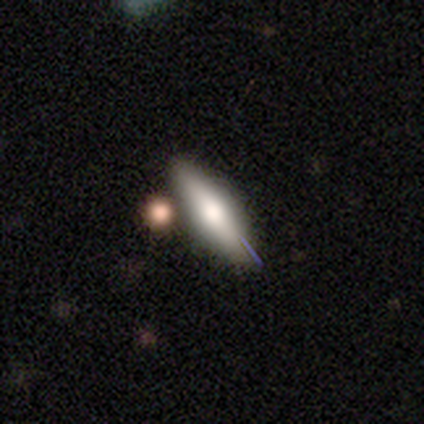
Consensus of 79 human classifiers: Volunteers were most divided on "smooth or featured": smooth: 54%, featured or disk: 43%, star or artifact: 3%. More confident: merging — none (73%); how rounded — cigar-shaped (63%).